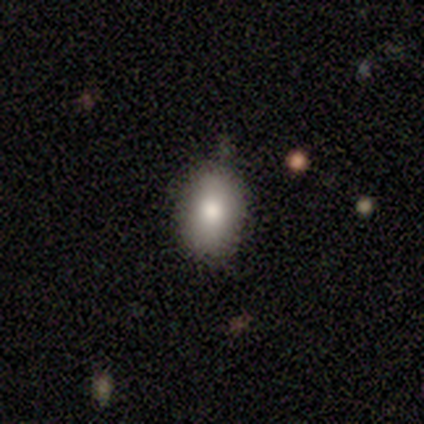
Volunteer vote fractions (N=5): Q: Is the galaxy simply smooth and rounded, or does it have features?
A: smooth — 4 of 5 (80%).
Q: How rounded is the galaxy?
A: in between — 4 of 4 (100%).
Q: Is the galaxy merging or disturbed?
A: none — 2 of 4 (50%, tied with minor disturbance).